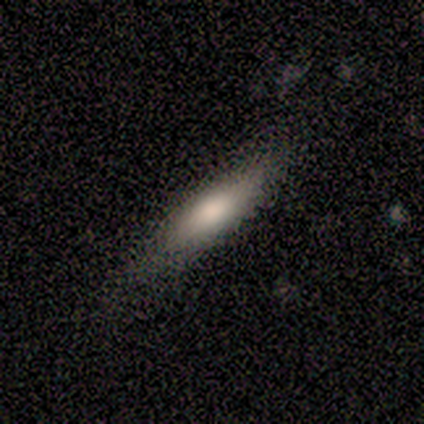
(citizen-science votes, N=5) Smooth or featured?
  - smooth: 80% *
  - featured or disk: 20%
  - star or artifact: 0%
How rounded?
  - cigar-shaped: 75% *
  - in between: 25%
  - round: 0%
Merging?
  - none: 100% *
  - minor disturbance: 0%
  - major disturbance: 0%
  - merger: 0%